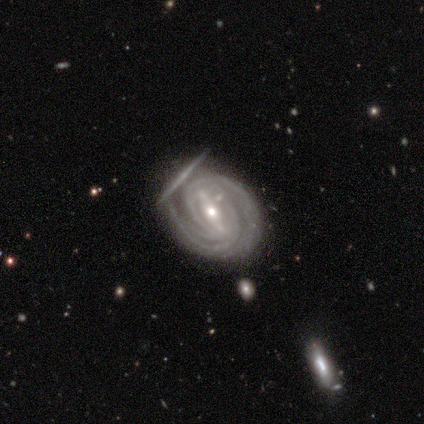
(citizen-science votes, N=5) This is clearly a featured or disk galaxy (100%). It is clearly not viewed edge-on (100%). Bar: clearly strong (80%). Spiral arm pattern: clearly yes (100%). Spiral arm count: marginally 2 (40%). Spiral winding: clearly tight (100%). Central bulge: clearly moderate (80%). Merging: marginally none (40%, tied with merger).